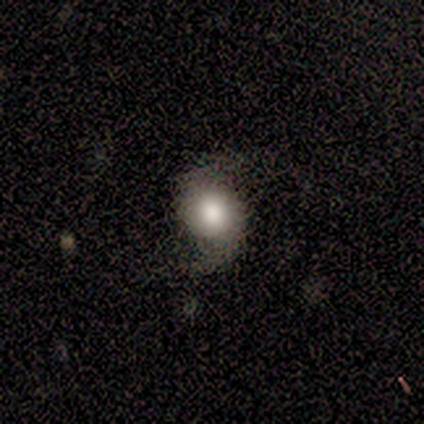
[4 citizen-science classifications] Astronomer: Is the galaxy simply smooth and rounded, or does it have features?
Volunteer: featured or disk — 50%.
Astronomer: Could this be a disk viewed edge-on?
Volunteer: no — 100%.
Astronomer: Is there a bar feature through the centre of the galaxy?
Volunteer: weak — 50%, tied with no at 50%.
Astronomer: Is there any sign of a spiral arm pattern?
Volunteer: yes — 100%.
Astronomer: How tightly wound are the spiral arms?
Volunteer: loose — 100%.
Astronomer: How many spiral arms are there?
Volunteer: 2 — 100%.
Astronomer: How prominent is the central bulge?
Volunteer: large — 50%, tied with moderate at 50%.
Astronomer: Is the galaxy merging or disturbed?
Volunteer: none — 33%, tied with minor disturbance and major disturbance at 33%.